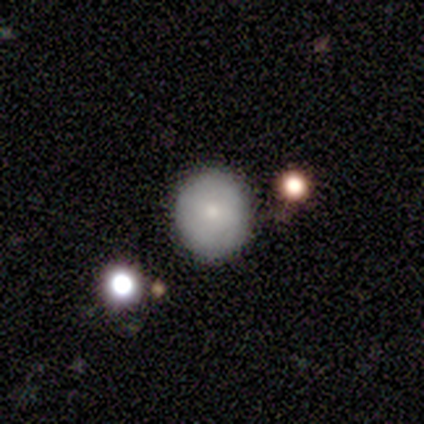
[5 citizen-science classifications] This is likely a smooth galaxy (60%). How rounded: likely round (67%). Merging: likely none (75%).